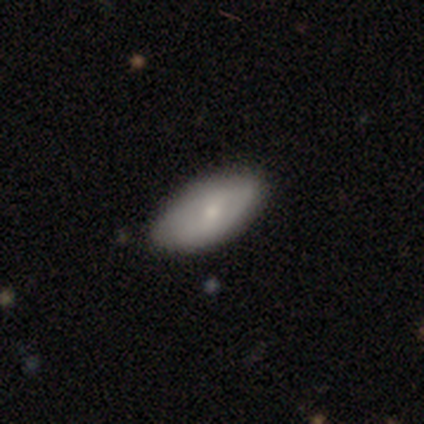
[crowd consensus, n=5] A smooth galaxy with no disk features (80%) that is in between round and cigar-shaped (100%).

Vote fractions:
- Smooth or featured? smooth: 80% / star or artifact: 20% / featured or disk: 0%
- How rounded? in between: 100% / round: 0% / cigar-shaped: 0%
- Merging? none: 100% / minor disturbance: 0% / major disturbance: 0% / merger: 0%